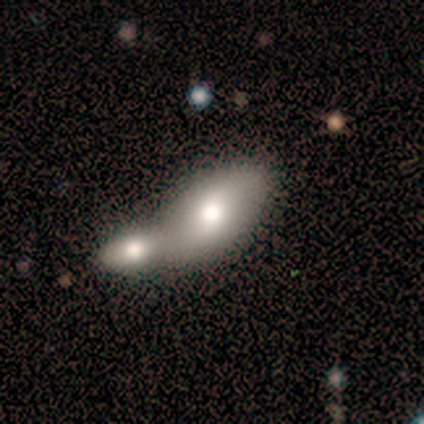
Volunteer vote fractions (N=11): smooth 64%, featured or disk 36%, star or artifact 0%. Down the decision tree: how rounded — in between (100%); merging — merger (91%).